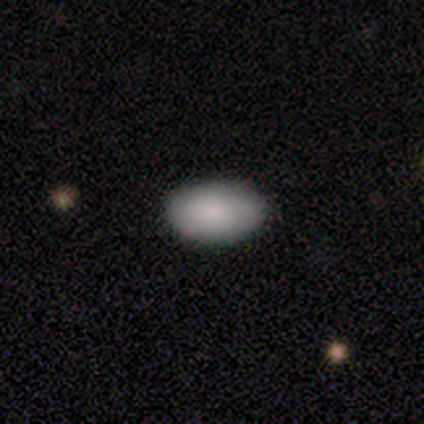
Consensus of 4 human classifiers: This appears to be a smooth galaxy with no disk features (100%) that is in between round and cigar-shaped (100%). Merging: none (75%).